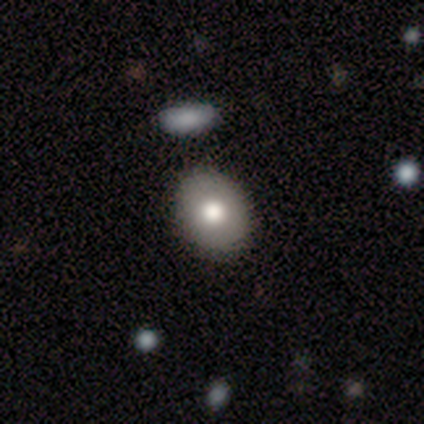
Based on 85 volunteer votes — This is likely a smooth galaxy (76%). How rounded: possibly in between (54%). Merging: clearly none (88%).